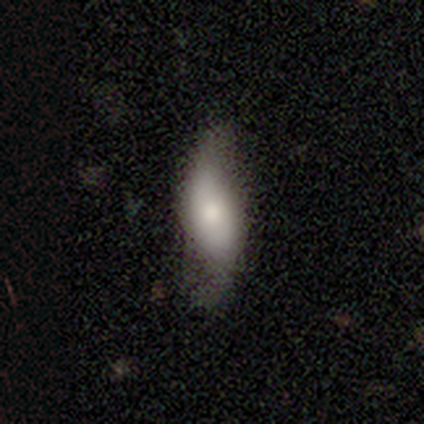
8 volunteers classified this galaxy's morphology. Q: Smooth or featured?
A: smooth (50%); tied with: featured or disk (50%)
Q: How rounded?
A: in between (50%); tied with: cigar-shaped (50%)
Q: Merging?
A: none (62%); runner-up: minor disturbance (38%)